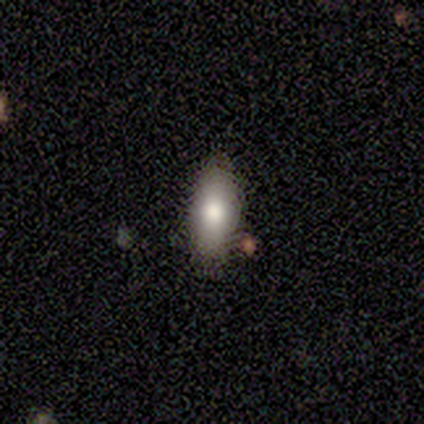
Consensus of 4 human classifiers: This appears to be a smooth galaxy with no disk features (75%) that is in between round and cigar-shaped (100%). Merging: none (75%).